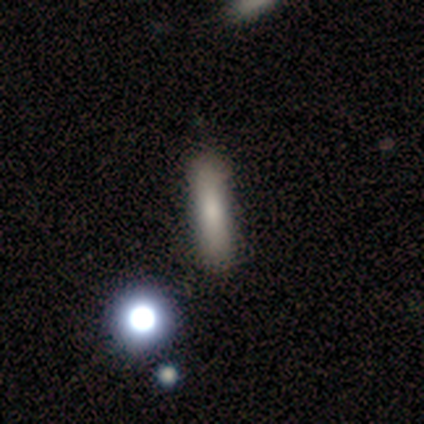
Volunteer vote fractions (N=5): A smooth galaxy with no disk features (80%) that is cigar-shaped (75%).

Vote fractions:
- Smooth or featured? smooth: 80% / star or artifact: 20% / featured or disk: 0%
- How rounded? cigar-shaped: 75% / in between: 25% / round: 0%
- Merging? none: 75% / minor disturbance: 25% / major disturbance: 0% / merger: 0%